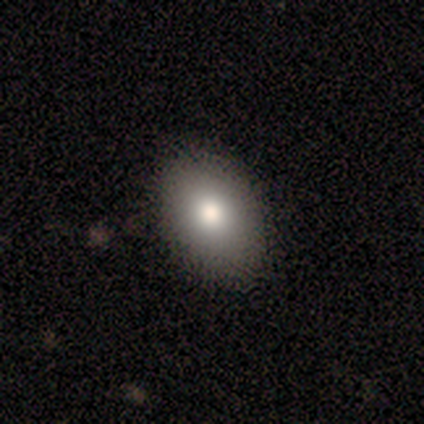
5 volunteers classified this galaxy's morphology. Overall: smooth (100%). How rounded: in between (80%). Merging: none (80%).